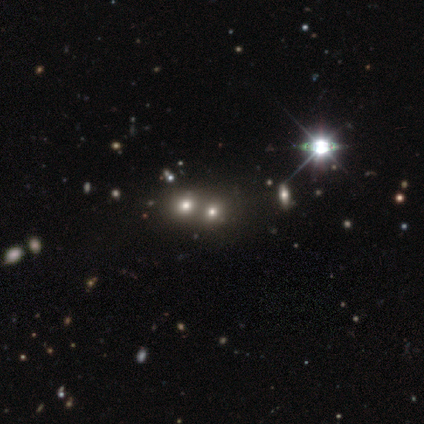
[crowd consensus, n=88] Volunteers were most divided on "smooth or featured": star or artifact: 44%, smooth: 40%, featured or disk: 16%.